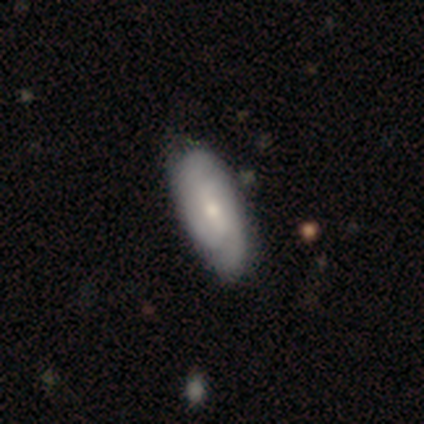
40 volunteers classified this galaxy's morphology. A featured or disk galaxy (65%) with a weak bar (40%), 2 (65%) tight (50%) spiral arms (80%) and a small central bulge (48%). Merging: none (52%).